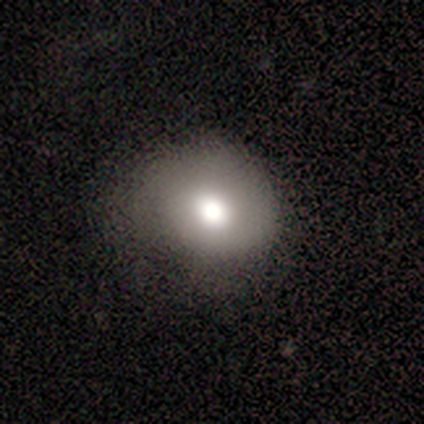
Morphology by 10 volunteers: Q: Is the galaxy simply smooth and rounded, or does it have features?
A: smooth — 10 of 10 (100%).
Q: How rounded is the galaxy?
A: round — 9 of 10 (90%).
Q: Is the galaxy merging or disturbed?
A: none — 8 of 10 (80%).